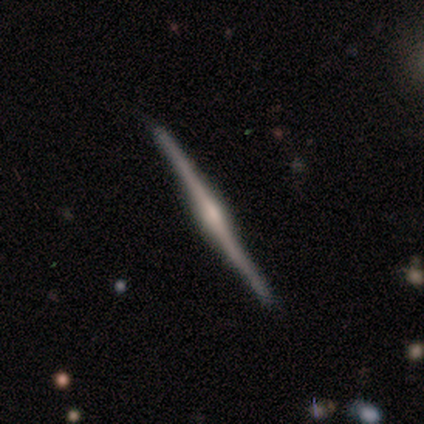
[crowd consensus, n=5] A featured or disk galaxy (100%) viewed edge-on (100%) with a rounded central bulge (60%). Merging: none (100%).